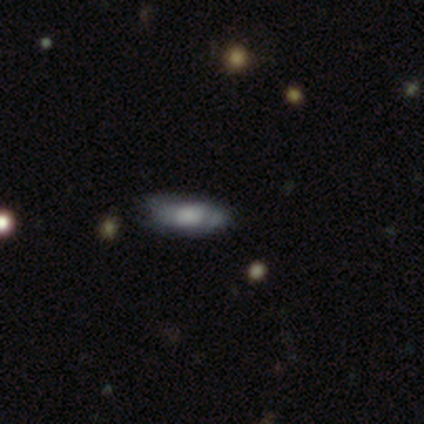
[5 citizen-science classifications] Overall: smooth (100%). How rounded: in between (60%; cigar-shaped 40%). Merging: none (60%; minor disturbance 40%).